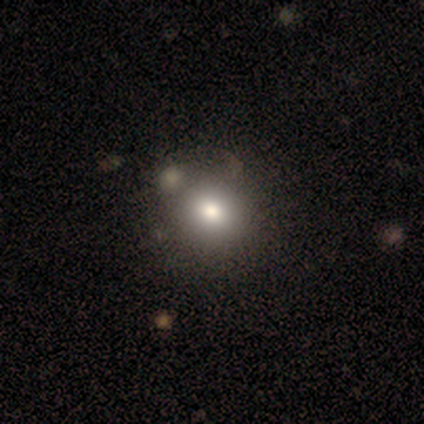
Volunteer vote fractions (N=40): Smooth or featured?
  - smooth: 72% *
  - star or artifact: 15%
  - featured or disk: 12%
How rounded?
  - round: 86% *
  - in between: 14%
  - cigar-shaped: 0%
Merging?
  - none: 59% *
  - minor disturbance: 15%
  - merger: 15%
  - major disturbance: 0%